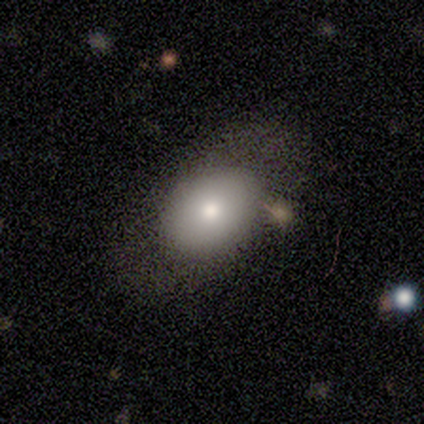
Overall: smooth (82%). How rounded: in between (76%). Merging: none (82%).